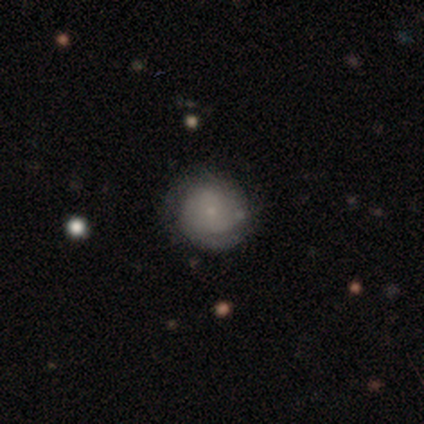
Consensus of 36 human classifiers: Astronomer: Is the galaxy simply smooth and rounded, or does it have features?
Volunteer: smooth — 50% (runner-up: featured or disk, 47%).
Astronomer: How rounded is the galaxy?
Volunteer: round — 94%.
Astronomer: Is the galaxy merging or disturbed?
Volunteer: none — 60%.